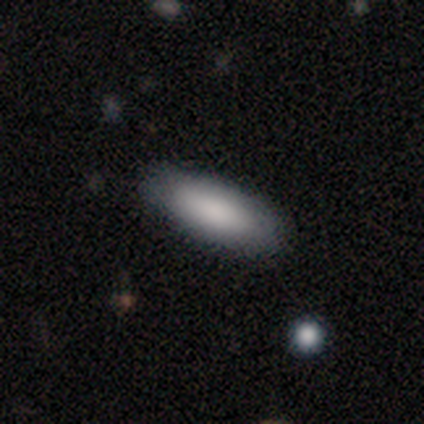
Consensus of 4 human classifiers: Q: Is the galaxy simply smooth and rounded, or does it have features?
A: smooth — 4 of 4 (100%).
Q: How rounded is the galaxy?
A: in between — 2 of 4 (50%, tied with cigar-shaped).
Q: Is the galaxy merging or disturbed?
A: none — 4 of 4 (100%).